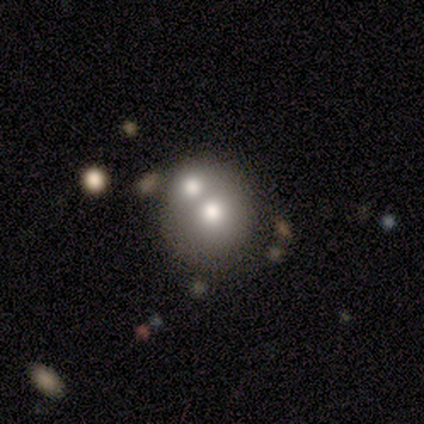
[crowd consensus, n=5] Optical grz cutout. It shows a smooth galaxy with no disk features (60%) that is round (67%). Merging: none (50%, tied with merger).